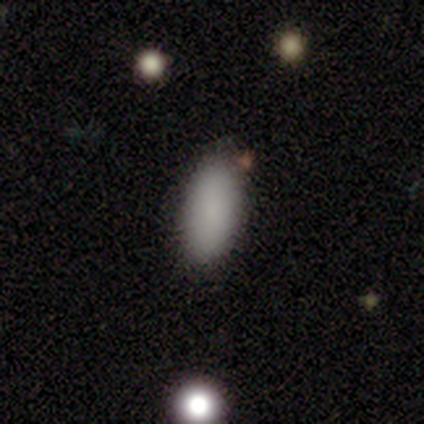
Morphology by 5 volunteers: Volunteers were most divided on "how rounded": in between: 80%, round: 20%, cigar-shaped: 0%. More confident: smooth or featured — smooth (100%); merging — none (100%).